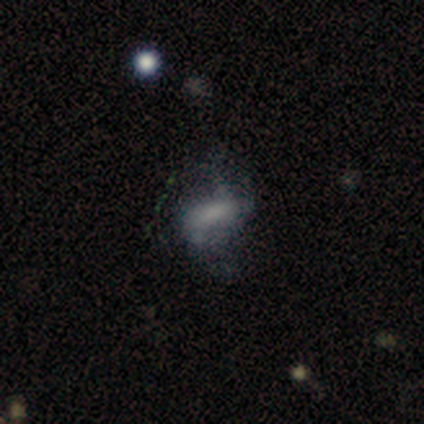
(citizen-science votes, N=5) This is marginally a smooth galaxy (40%, tied with featured or disk). How rounded: possibly in between (50%, tied with cigar-shaped). Merging: possibly none (50%).